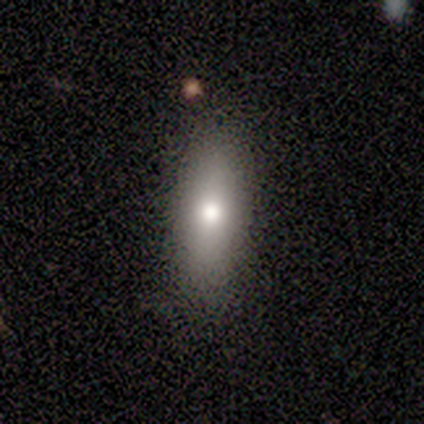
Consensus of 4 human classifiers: Overall: smooth (50%, tied with featured or disk). How rounded: in between (50%, tied with cigar-shaped). Merging: none (50%, tied with minor disturbance).